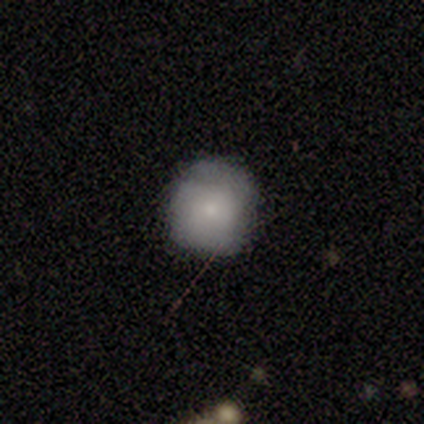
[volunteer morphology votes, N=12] Smooth or featured: smooth — 75% (featured or disk — 17%)
How rounded: round — 89% (in between — 11%)
Merging: none — 64% (minor disturbance — 36%)